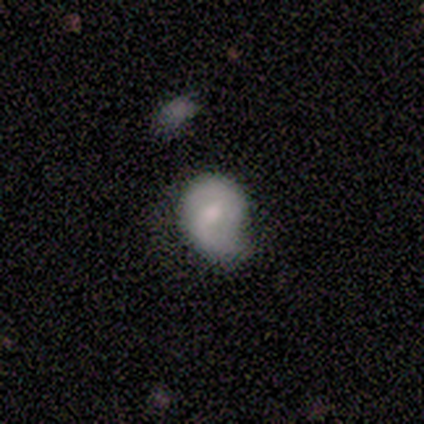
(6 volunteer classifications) Volunteers were most divided on "bar" (3-way tie): strong: 33%, weak: 33%, no: 33%. More confident: edge-on disk — no (100%); spiral arms — yes (100%); spiral winding — loose (67%); spiral arm count — 2 (67%); bulge size — small (67%); merging — minor disturbance (60%); smooth or featured — featured or disk (50%).